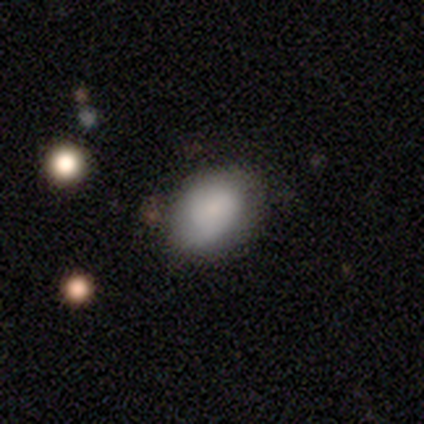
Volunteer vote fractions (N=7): smooth-or-featured: smooth: 86% | featured or disk: 14% | star or artifact: 0%
  how-rounded: in between: 100% | round: 0% | cigar-shaped: 0%
  merging: none: 100% | minor disturbance: 0% | major disturbance: 0% | merger: 0%